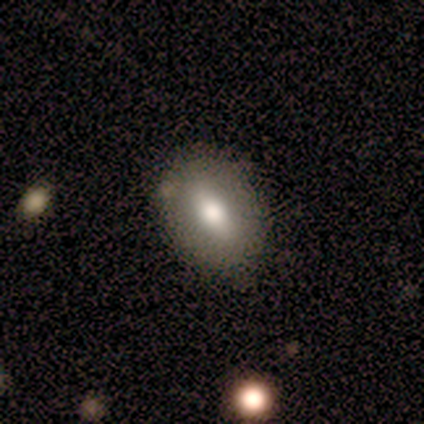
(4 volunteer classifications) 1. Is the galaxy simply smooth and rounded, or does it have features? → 75% smooth, 25% featured or disk, 0% star or artifact.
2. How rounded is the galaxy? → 67% in between, 33% round, 0% cigar-shaped.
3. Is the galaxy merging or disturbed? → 75% none, 25% merger, 0% minor disturbance, 0% major disturbance.